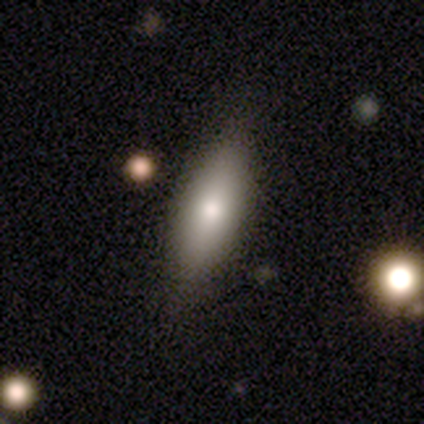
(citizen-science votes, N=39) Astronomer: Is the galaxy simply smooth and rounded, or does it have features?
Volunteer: smooth — 82%.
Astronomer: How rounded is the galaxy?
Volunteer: cigar-shaped — 53% (runner-up: in between, 47%).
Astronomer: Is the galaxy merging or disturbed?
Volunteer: none — 79%.